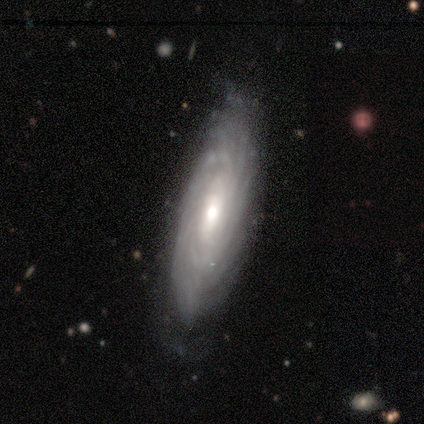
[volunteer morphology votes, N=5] featured or disk 80%, smooth 20%, star or artifact 0%. Down the decision tree: edge-on disk — no (100%); bar — no (75%); spiral arms — yes (100%); spiral arm count — can't tell (75%); spiral winding — tight (50%, tied with loose); bulge size — moderate (50%); merging — none (80%).